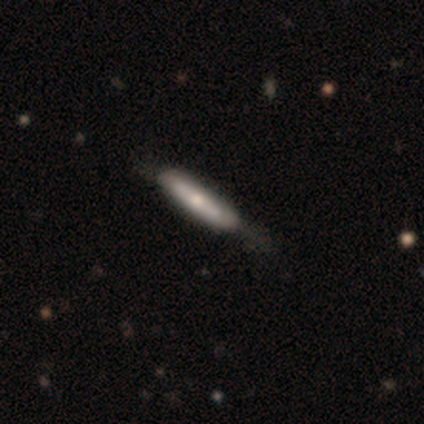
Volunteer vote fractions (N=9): A smooth galaxy with no disk features (67%) that is cigar-shaped (100%).

Vote fractions:
- Smooth or featured? smooth: 67% / featured or disk: 22% / star or artifact: 11%
- How rounded? cigar-shaped: 100% / round: 0% / in between: 0%
- Merging? minor disturbance: 50% / none: 38% / major disturbance: 12% / merger: 0%